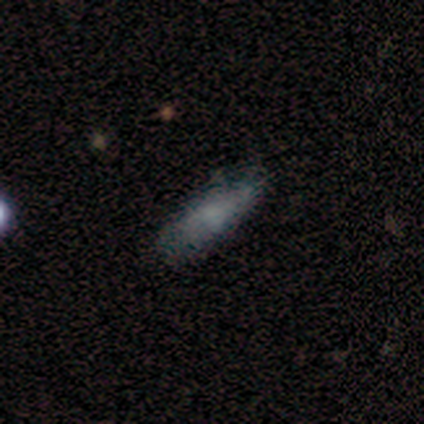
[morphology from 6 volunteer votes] Smooth or featured? smooth (100%)
How rounded? cigar-shaped (67%)
Merging? none (83%)